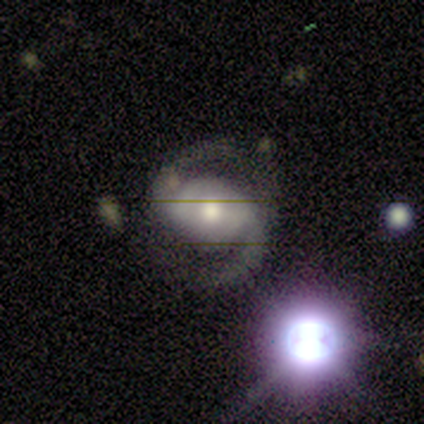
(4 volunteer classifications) featured or disk 50% (tied), star or artifact 50% (tied), smooth 0%. Down the decision tree: edge-on disk — no (100%); bar — weak (50%, tied with no); spiral arms — yes (100%); spiral arm count — 2 (100%); spiral winding — medium (100%); bulge size — moderate (50%, tied with small); merging — none (100%).